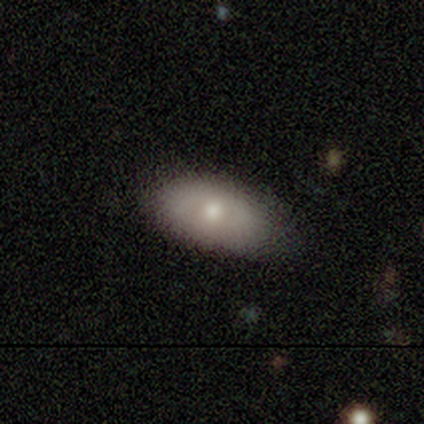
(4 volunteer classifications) Morphology: type=smooth (75%); roundness=in between (100%); merging=none (75%).